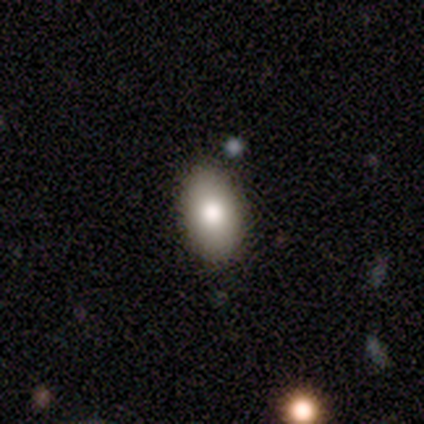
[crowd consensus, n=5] Smooth or featured: smooth — 60% (featured or disk — 20%)
How rounded: in between — 100%
Merging: none — 100%